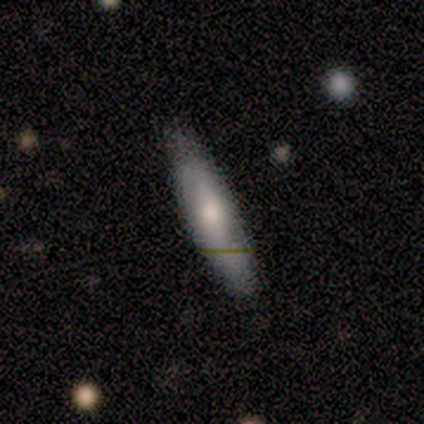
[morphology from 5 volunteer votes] smooth-or-featured: featured or disk: 60% | smooth: 40% | star or artifact: 0%
  disk-edge-on: yes: 67% | no: 33%
    edge-on-bulge: none: 50% (tied) | rounded: 50% (tied) | boxy: 0%
  merging: none: 100% | minor disturbance: 0% | major disturbance: 0% | merger: 0%